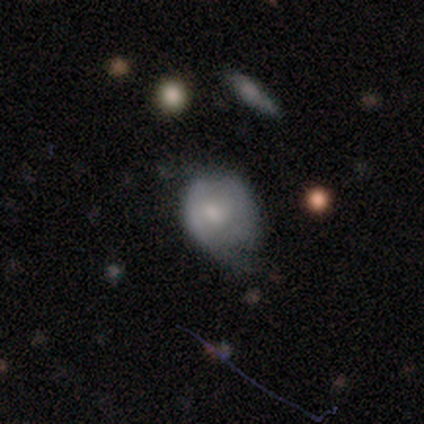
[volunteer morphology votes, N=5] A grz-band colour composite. It shows a smooth galaxy with no disk features (80%) that is round (50%, tied with in between). Merging: none (80%).